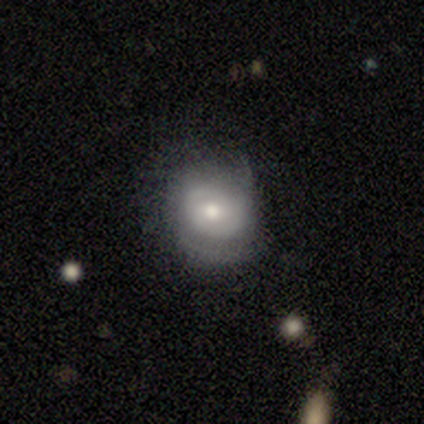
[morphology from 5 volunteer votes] This is likely a featured or disk galaxy (60%). It is likely not viewed edge-on (67%). Bar: possibly weak (50%, tied with no). Spiral arm pattern: clearly yes (100%). Spiral arm count: clearly 2 (100%). Spiral winding: clearly medium (100%). Central bulge: possibly large (50%, tied with moderate). Merging: marginally minor disturbance (40%, tied with major disturbance).